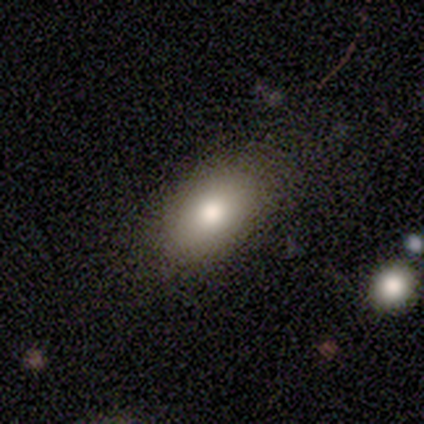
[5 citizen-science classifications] Overall: smooth (60%; featured or disk 20%). How rounded: in between (100%). Merging: none (100%).